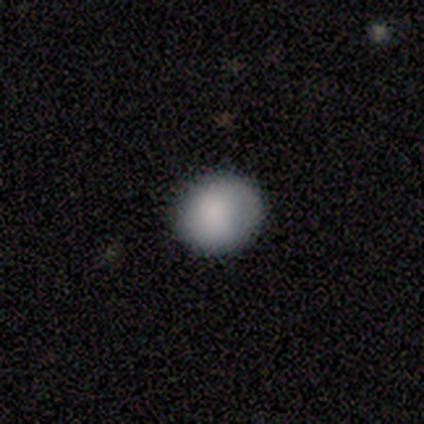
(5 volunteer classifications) This is likely a smooth galaxy (60%). How rounded: clearly round (100%). Merging: clearly none (100%).